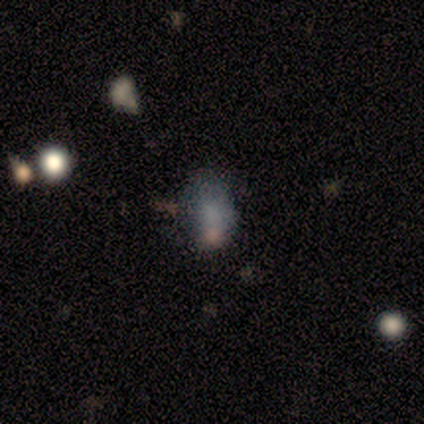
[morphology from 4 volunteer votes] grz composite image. It shows a smooth galaxy with no disk features (50%) that is round (50%, tied with in between). Merging: none (67%).